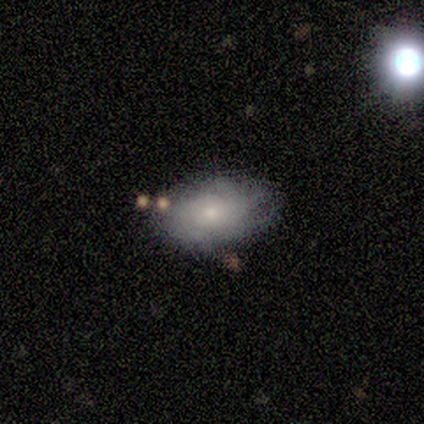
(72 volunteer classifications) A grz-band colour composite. It shows a featured or disk galaxy (50%) with no bar (86%), tight (59%) spiral arms (77%) and a small central bulge (63%). Merging: none (64%).